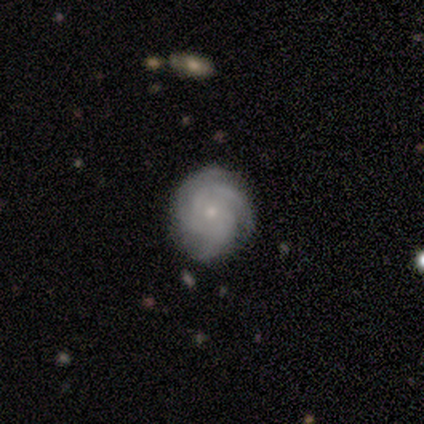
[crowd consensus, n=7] Q: Smooth or featured?
A: featured or disk (86%); runner-up: smooth (14%)
Q: Edge-on disk?
A: no (100%)
Q: Bar?
A: weak (50%); tied with: no (50%)
Q: Spiral arms?
A: yes (100%)
Q: Spiral winding?
A: tight (83%); runner-up: medium (17%)
Q: Spiral arm count?
A: 3 (67%); runner-up: 2 (17%)
Q: Bulge size?
A: moderate (67%); runner-up: small (17%)
Q: Merging?
A: none (57%); runner-up: minor disturbance (43%)